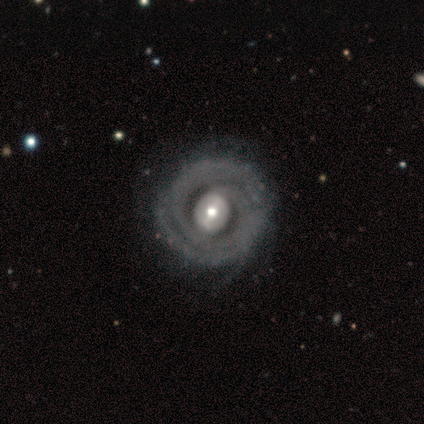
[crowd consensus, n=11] Smooth or featured? 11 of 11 (100%) said featured or disk. Edge-on disk? 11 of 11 (100%) said no. Bar? 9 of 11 (82%) said weak. Spiral arms? 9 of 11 (82%) said yes. Spiral winding? 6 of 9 (67%) said tight. Spiral arm count? 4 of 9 (44%) said 2. Bulge size? 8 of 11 (73%) said moderate. Merging? 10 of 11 (91%) said none.